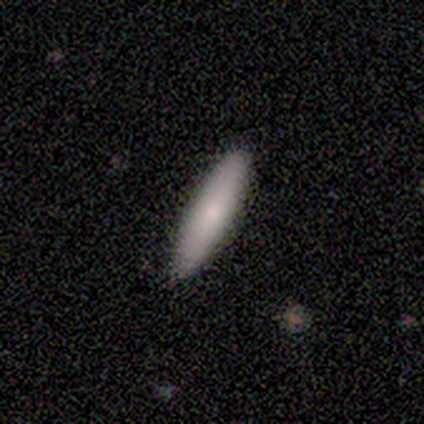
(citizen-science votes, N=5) smooth-or-featured: smooth: 80% | featured or disk: 20% | star or artifact: 0%
  how-rounded: cigar-shaped: 75% | in between: 25% | round: 0%
  merging: none: 100% | minor disturbance: 0% | major disturbance: 0% | merger: 0%